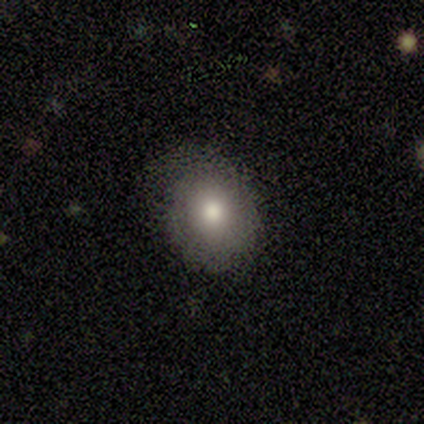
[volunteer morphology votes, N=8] smooth_or_featured: smooth (p=0.62) [alt: star or artifact p=0.25]
how_rounded: round (p=0.60) [alt: in between p=0.40]
merging: none (p=0.83) [alt: minor disturbance p=0.17]